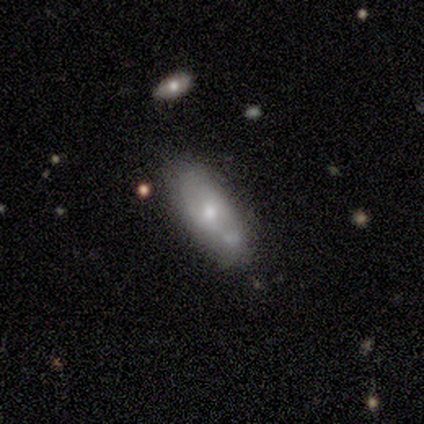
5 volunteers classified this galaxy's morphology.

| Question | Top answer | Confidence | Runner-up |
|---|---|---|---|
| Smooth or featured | smooth | 80% | featured or disk (20%) |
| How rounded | in between | 100% | — |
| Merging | none | 80% | merger (20%) |